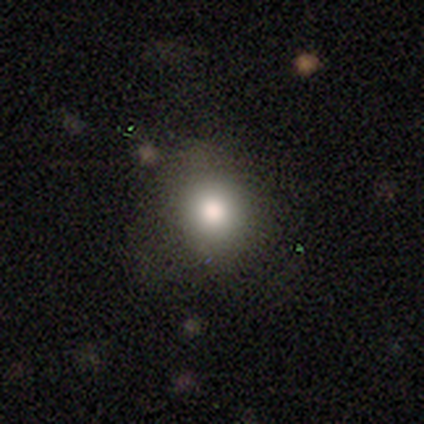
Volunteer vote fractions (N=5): A smooth galaxy with no disk features (80%) that is round (100%). Merging: none (100%).